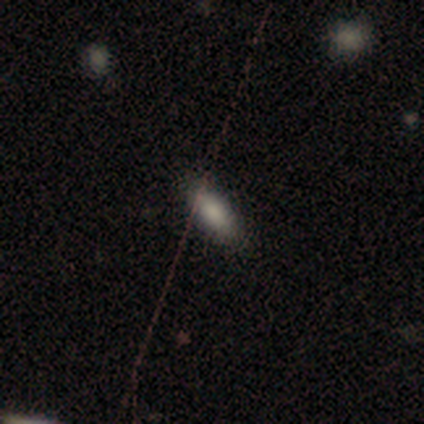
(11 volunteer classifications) Q: Smooth or featured?
A: smooth (82%); runner-up: featured or disk (9%)
Q: How rounded?
A: in between (89%); runner-up: cigar-shaped (11%)
Q: Merging?
A: none (100%)